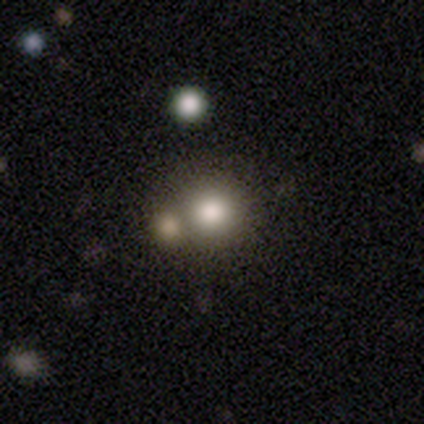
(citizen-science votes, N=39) Volunteers were most divided on "merging": none: 53%, merger: 34%, minor disturbance: 6%, major disturbance: 6%. More confident: how rounded — round (82%); smooth or featured — smooth (72%).